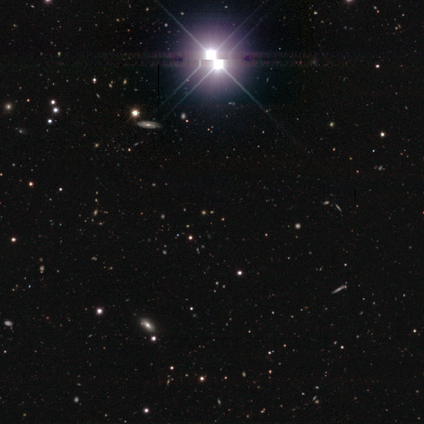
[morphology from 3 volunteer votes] smooth_or_featured: star or artifact (p=1.00)